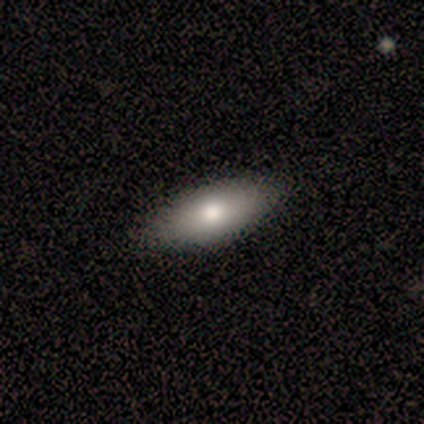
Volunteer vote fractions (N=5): Smooth or featured: smooth — 80% (featured or disk — 20%)
How rounded: in between — 75% (cigar-shaped — 25%)
Merging: none — 80% (minor disturbance — 20%)